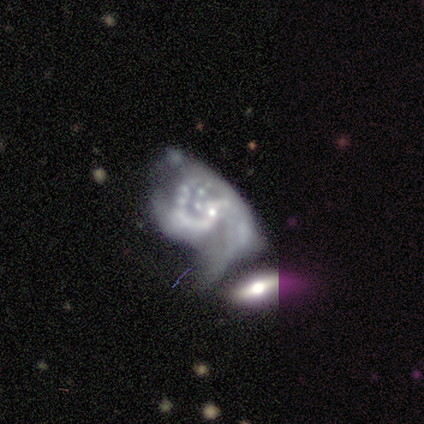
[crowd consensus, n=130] Smooth or featured: featured or disk — 88% (star or artifact — 8%)
Edge-on disk: no — 97% (yes — 3%)
Bar: no — 69% (weak — 21%)
Spiral arms: yes — 68% (no — 32%)
Spiral winding: medium — 43% (loose — 40%)
Spiral arm count: 2 — 43% (can't tell — 25%)
Bulge size: small — 59% (moderate — 20%)
Merging: major disturbance — 49% (merger — 37%)